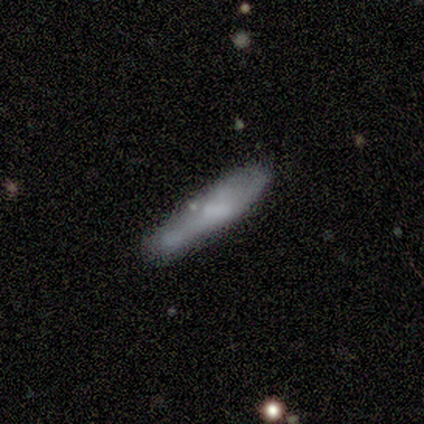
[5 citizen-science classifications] smooth-or-featured: smooth: 60% | featured or disk: 40% | star or artifact: 0%
  how-rounded: cigar-shaped: 100% | round: 0% | in between: 0%
  merging: none: 60% | minor disturbance: 20% | merger: 20% | major disturbance: 0%